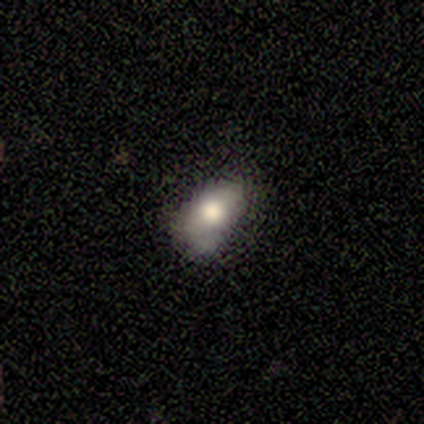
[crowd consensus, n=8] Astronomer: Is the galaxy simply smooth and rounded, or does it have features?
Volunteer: smooth — 62%.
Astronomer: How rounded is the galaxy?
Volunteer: in between — 100%.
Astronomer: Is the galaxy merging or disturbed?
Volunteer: none — 57% (runner-up: minor disturbance, 43%).